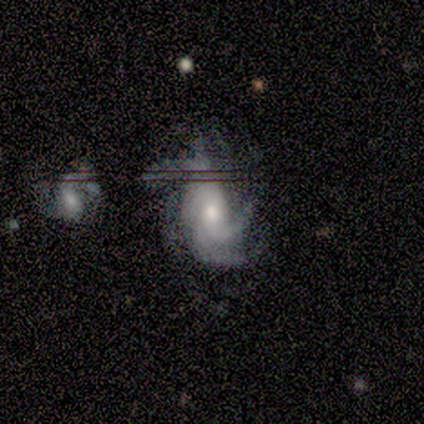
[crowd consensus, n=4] smooth_or_featured: featured or disk (p=1.00)
disk_edge_on: no (p=1.00)
bar: no (p=0.75) [alt: weak p=0.25]
has_spiral_arms: yes (p=1.00)
spiral_winding: medium (p=0.75) [alt: tight p=0.25]
spiral_arm_count: 3 (p=0.50) [alt: 4 p=0.25]
bulge_size: moderate (p=0.50) [tied with: small p=0.50]
merging: none (p=0.50) [alt: minor disturbance p=0.25]